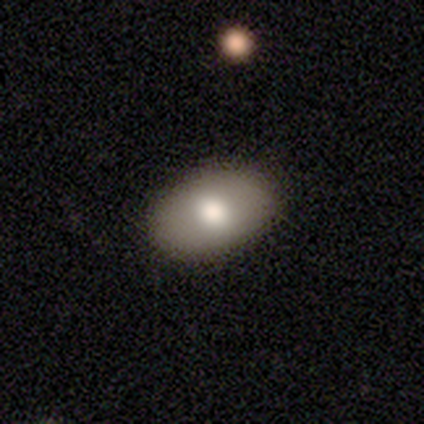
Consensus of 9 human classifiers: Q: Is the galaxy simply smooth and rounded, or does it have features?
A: smooth — 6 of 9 (67%).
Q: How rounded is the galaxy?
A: in between — 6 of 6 (100%).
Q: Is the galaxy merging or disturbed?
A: none — 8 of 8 (100%).